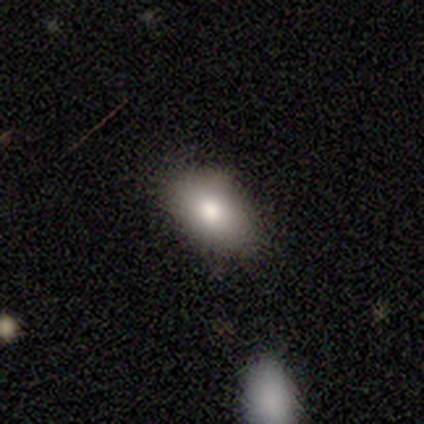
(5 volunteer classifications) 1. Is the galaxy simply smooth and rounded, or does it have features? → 100% smooth, 0% featured or disk, 0% star or artifact.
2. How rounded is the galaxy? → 100% in between, 0% round, 0% cigar-shaped.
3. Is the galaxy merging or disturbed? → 80% none, 20% minor disturbance, 0% major disturbance, 0% merger.